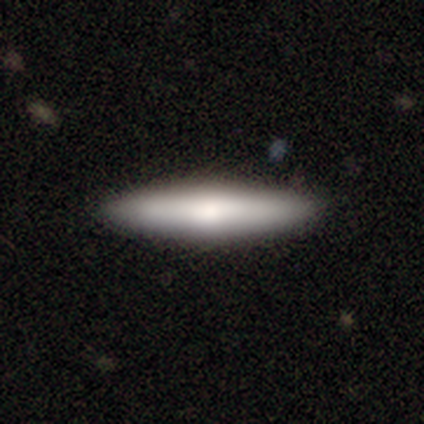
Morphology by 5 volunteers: smooth 100%, featured or disk 0%, star or artifact 0%. Down the decision tree: how rounded — cigar-shaped (100%); merging — none (100%).